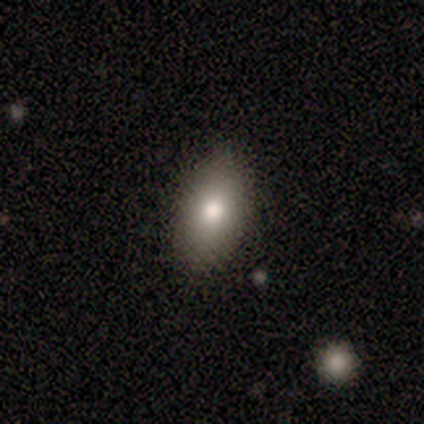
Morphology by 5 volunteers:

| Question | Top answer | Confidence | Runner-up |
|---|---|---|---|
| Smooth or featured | smooth | 60% | featured or disk (40%) |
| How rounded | round | 67% | in between (33%) |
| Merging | none | 100% | — |